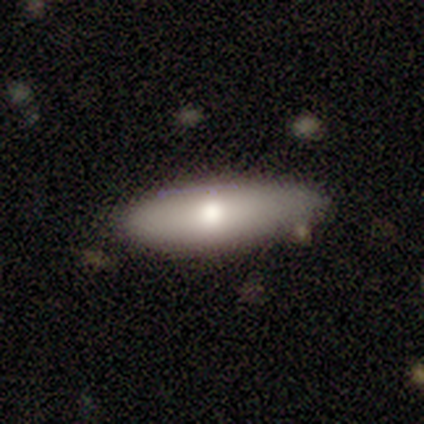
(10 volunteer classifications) Morphology: type=smooth (80%); roundness=in between (75%); merging=none (80%).